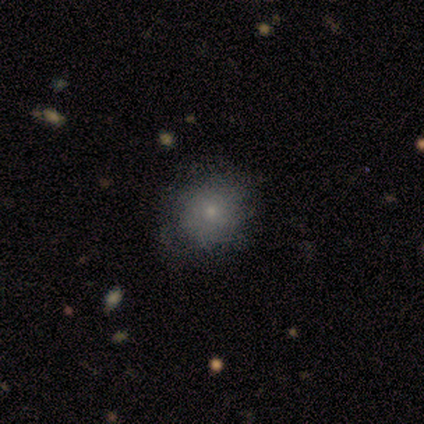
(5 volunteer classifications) This appears to be a smooth galaxy with no disk features (60%) that is round (100%). Merging: minor disturbance (60%).